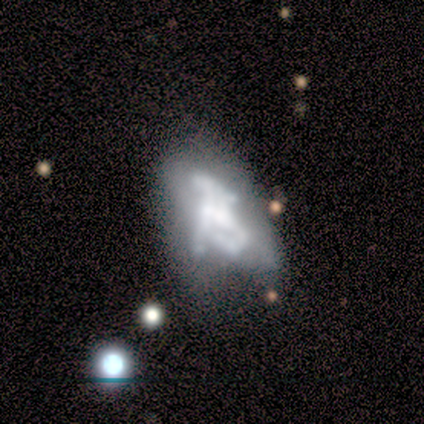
This is likely a featured or disk galaxy (75%). It is clearly not viewed edge-on (93%). Bar: likely no (75%). Spiral arm pattern: likely no (75%). Central bulge: marginally moderate (36%). Merging: marginally merger (31%).